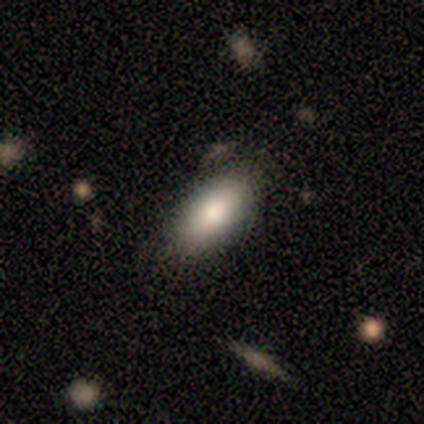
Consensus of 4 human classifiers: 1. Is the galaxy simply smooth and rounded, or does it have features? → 100% smooth, 0% featured or disk, 0% star or artifact.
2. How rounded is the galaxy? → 100% in between, 0% round, 0% cigar-shaped.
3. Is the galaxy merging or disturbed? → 75% none, 25% minor disturbance, 0% major disturbance, 0% merger.